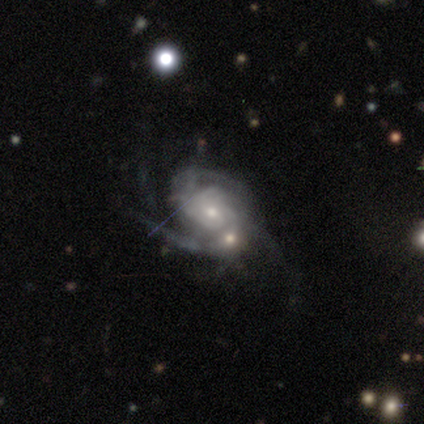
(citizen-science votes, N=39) Smooth or featured? 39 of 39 (100%) said featured or disk. Edge-on disk? 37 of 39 (95%) said no. Bar? 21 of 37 (57%) said no. Spiral arms? 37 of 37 (100%) said yes. Spiral winding? 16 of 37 (43%) said tight. Spiral arm count? 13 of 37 (35%) said can't tell. Bulge size? 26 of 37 (70%) said small. Merging? 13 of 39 (33%) said merger.